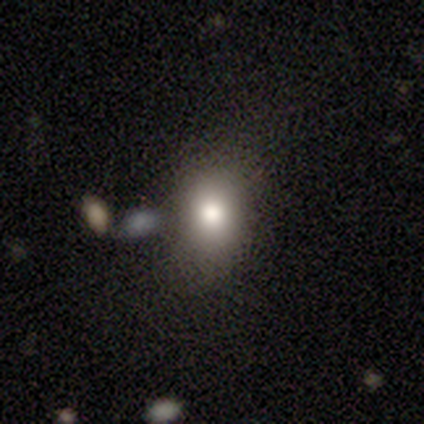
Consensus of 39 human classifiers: This is likely a smooth galaxy (77%). How rounded: likely in between (60%). Merging: likely none (70%).